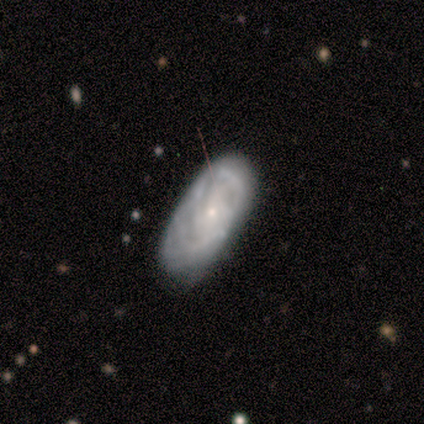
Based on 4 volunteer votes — This appears to be a featured or disk galaxy (75%) with no bar (67%), no spiral arms (67%) and a small central bulge (100%). Merging: none (100%).